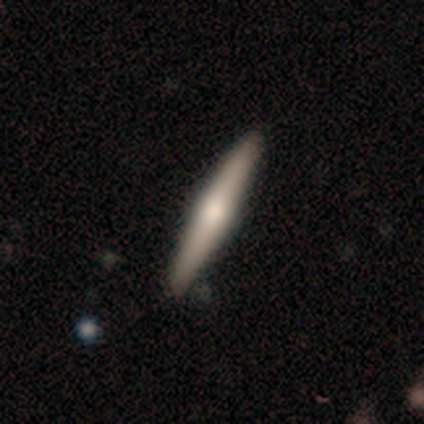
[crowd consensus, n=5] Q: Smooth or featured?
A: featured or disk (80%); runner-up: smooth (20%)
Q: Edge-on disk?
A: yes (100%)
Q: Edge-on bulge?
A: rounded (75%); runner-up: boxy (25%)
Q: Merging?
A: none (100%)